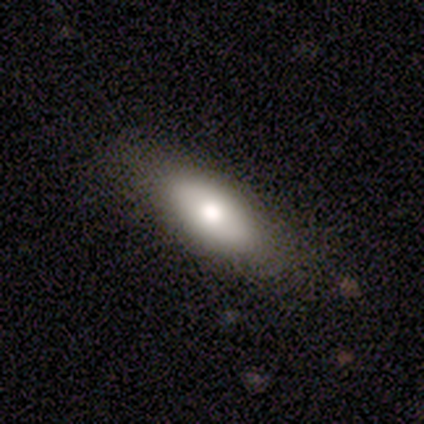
Q: Smooth or featured?
A: smooth (100%)
Q: How rounded?
A: in between (80%); runner-up: cigar-shaped (20%)
Q: Merging?
A: none (100%)